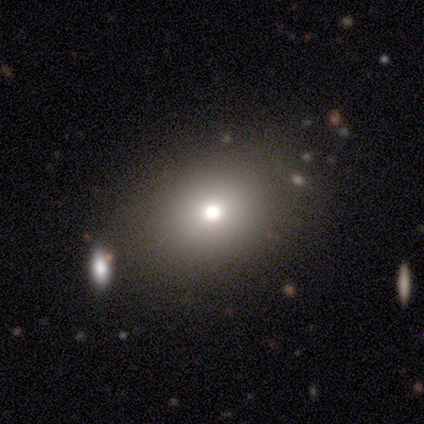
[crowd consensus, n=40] Q: Smooth or featured?
A: smooth (68%); runner-up: featured or disk (20%)
Q: How rounded?
A: in between (52%); runner-up: round (44%)
Q: Merging?
A: none (80%); runner-up: merger (11%)